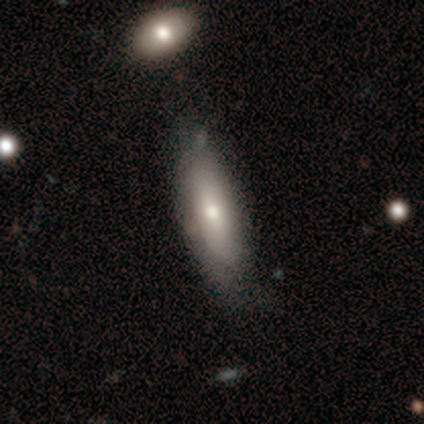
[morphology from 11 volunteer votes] Q: Smooth or featured?
A: smooth (64%); runner-up: featured or disk (36%)
Q: How rounded?
A: in between (86%); runner-up: cigar-shaped (14%)
Q: Merging?
A: none (73%); runner-up: minor disturbance (18%)